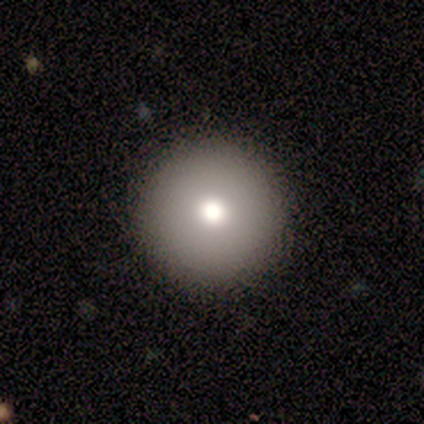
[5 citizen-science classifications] This is clearly a smooth galaxy (80%). How rounded: clearly round (100%). Merging: clearly none (100%).